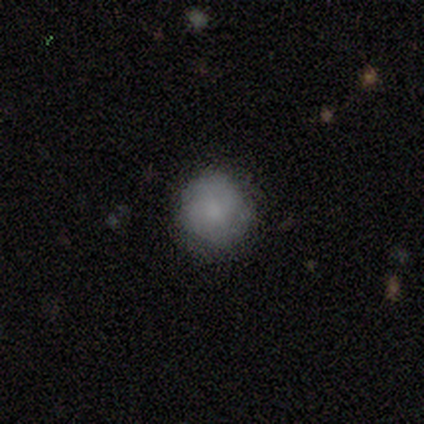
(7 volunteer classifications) Smooth or featured: smooth — 86% (featured or disk — 14%)
How rounded: round — 100%
Merging: none — 86% (major disturbance — 14%)